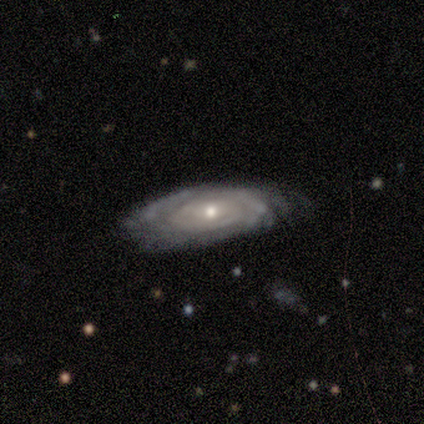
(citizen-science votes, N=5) This is clearly a featured or disk galaxy (100%). It is clearly not viewed edge-on (100%). Bar: likely no (60%). Spiral arm pattern: likely no (60%). Central bulge: likely moderate (60%). Merging: clearly none (80%).